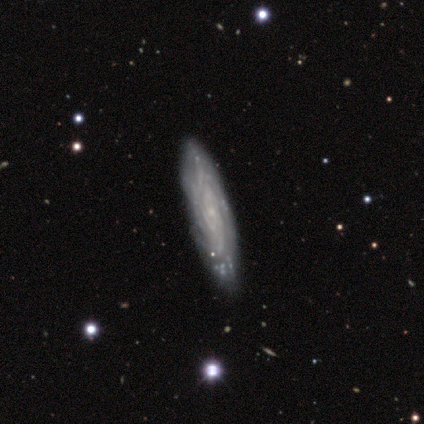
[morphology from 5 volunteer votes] featured or disk 80%, smooth 20%, star or artifact 0%. Down the decision tree: edge-on disk — no (75%); bar — no (100%); spiral arms — yes (100%); spiral arm count — more than 4 (67%); spiral winding — tight (33%, tied with medium and loose); bulge size — small (100%); merging — none (60%).